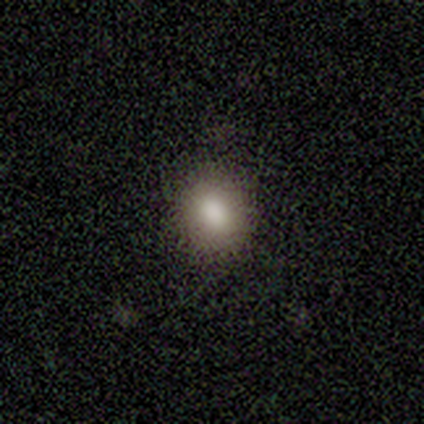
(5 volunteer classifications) Overall: smooth (80%). How rounded: round (50%; in between 25%). Merging: none (100%).